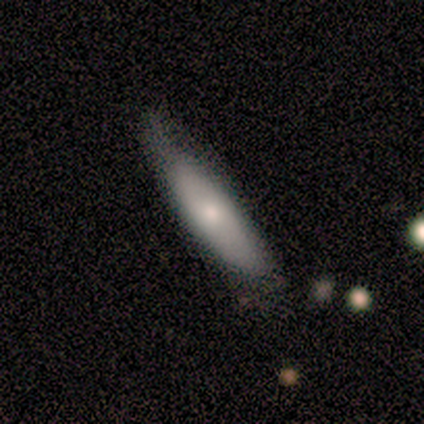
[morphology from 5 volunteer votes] smooth 100%, featured or disk 0%, star or artifact 0%. Down the decision tree: how rounded — cigar-shaped (80%); merging — none (80%).